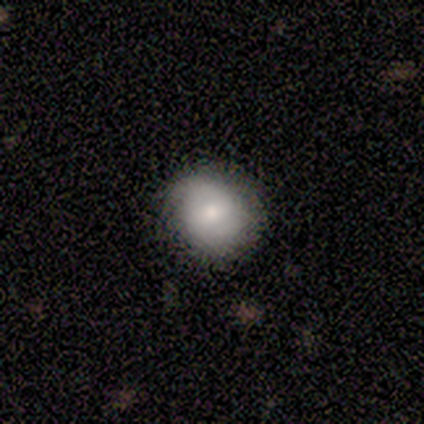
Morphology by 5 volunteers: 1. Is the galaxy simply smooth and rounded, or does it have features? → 80% smooth, 20% featured or disk, 0% star or artifact.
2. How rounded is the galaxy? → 75% round, 25% in between, 0% cigar-shaped.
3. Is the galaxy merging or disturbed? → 80% none, 20% minor disturbance, 0% major disturbance, 0% merger.